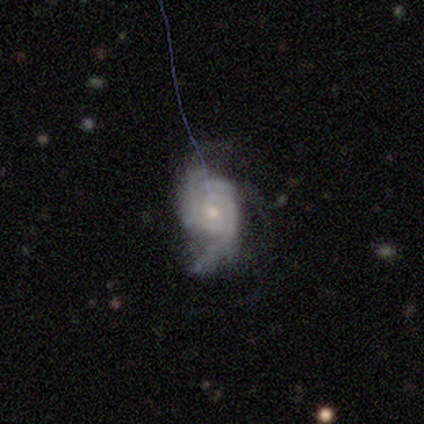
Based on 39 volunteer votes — Morphology: type=featured or disk (87%); edge-on=no (94%); bar=no (62%); spiral arms=yes (100%); winding=tight (50%); arm count=3 (41%); bulge=small (50%); merging=none (49%).